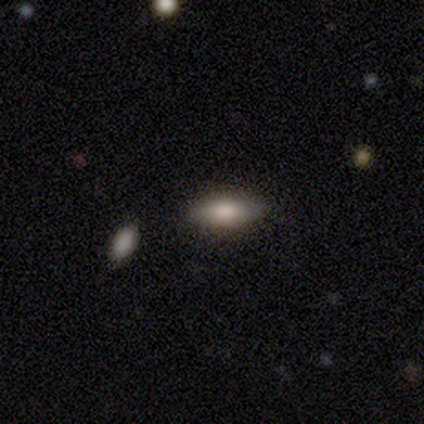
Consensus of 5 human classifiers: Smooth or featured? smooth (60%)
How rounded? cigar-shaped (67%)
Merging? none (80%)